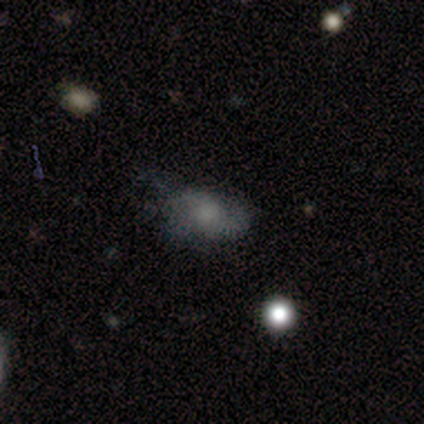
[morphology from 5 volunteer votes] type=smooth (60%); roundness=in between (100%); merging=minor disturbance (100%).